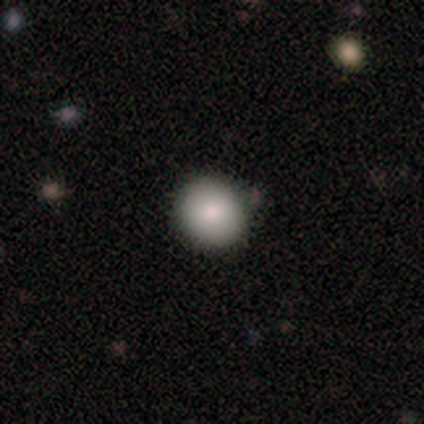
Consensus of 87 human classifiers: Smooth or featured: smooth — 82% (star or artifact — 11%)
How rounded: round — 87% (in between — 11%)
Merging: none — 84% (minor disturbance — 10%)